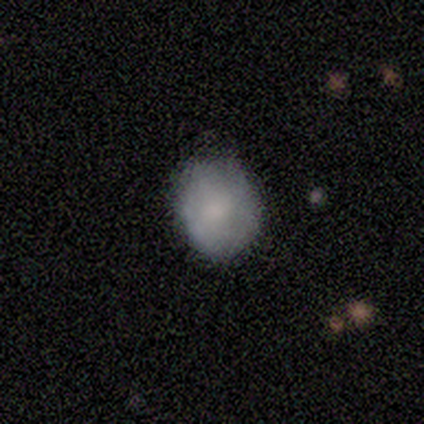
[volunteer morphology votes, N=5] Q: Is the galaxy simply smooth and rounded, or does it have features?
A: smooth — 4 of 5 (80%).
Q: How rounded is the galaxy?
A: in between — 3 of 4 (75%).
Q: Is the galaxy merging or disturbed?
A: none — 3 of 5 (60%).